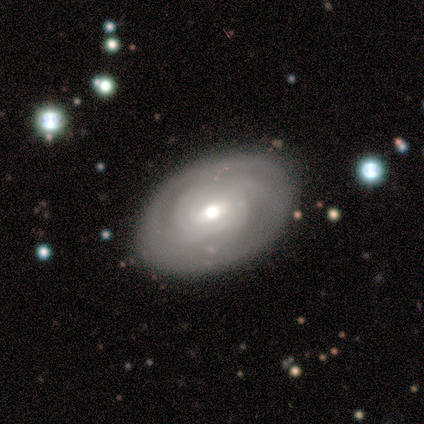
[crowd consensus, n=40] Smooth or featured? featured or disk (72%)
Edge-on disk? no (97%)
Bar? weak (50%, tied with no)
Spiral arms? yes (86%)
Spiral winding? tight (79%)
Spiral arm count? can't tell (38%)
Bulge size? moderate (61%)
Merging? none (94%)